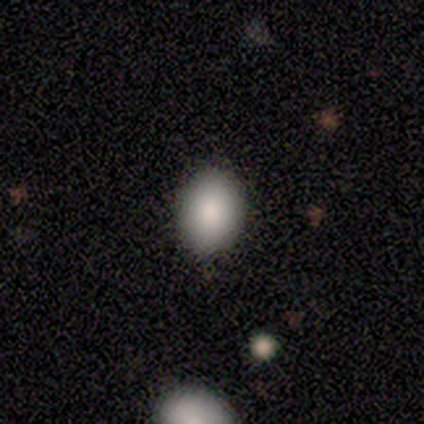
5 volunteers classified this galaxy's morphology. This is likely a smooth galaxy (60%). How rounded: likely in between (67%). Merging: clearly none (100%).